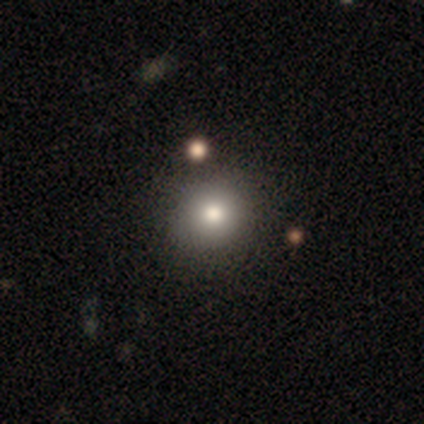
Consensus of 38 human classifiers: smooth 84%, star or artifact 11%, featured or disk 5%. Down the decision tree: how rounded — round (84%); merging — none (59%).